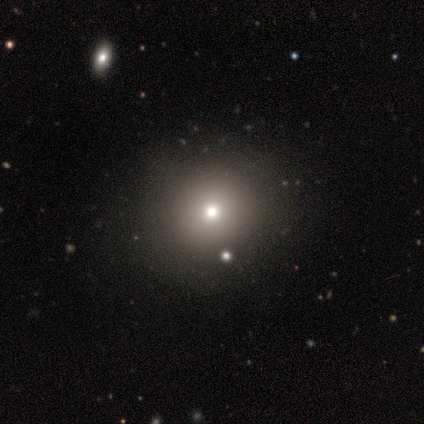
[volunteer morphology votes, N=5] Overall: smooth (100%). How rounded: round (60%; in between 40%). Merging: none (80%).